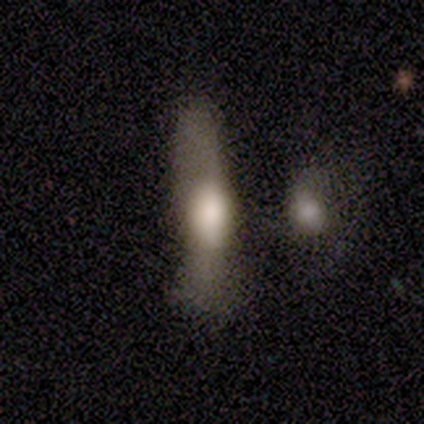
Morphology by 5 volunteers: Smooth or featured? featured or disk (100%)
Edge-on disk? yes (60%)
Edge-on bulge? boxy (67%)
Merging? none (40%, tied with minor disturbance)